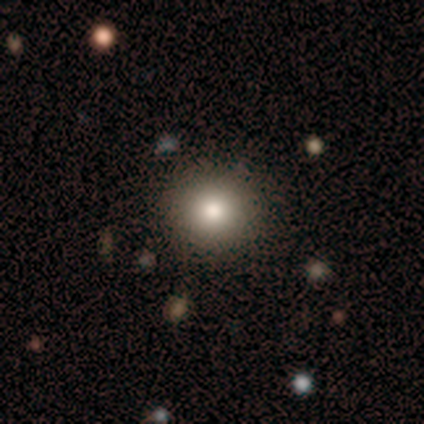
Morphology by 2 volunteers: Q: Smooth or featured?
A: smooth (100%)
Q: How rounded?
A: round (100%)
Q: Merging?
A: none (100%)